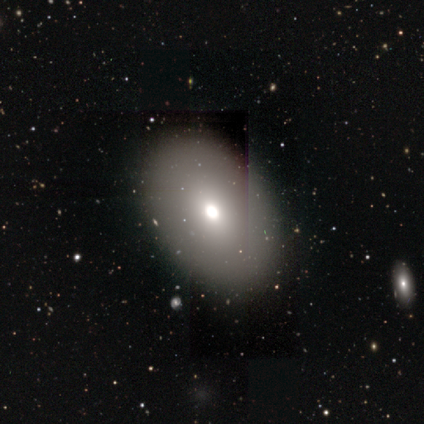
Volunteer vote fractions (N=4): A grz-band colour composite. It shows a smooth galaxy with no disk features (50%) that is round (50%, tied with in between). Merging: none (100%).